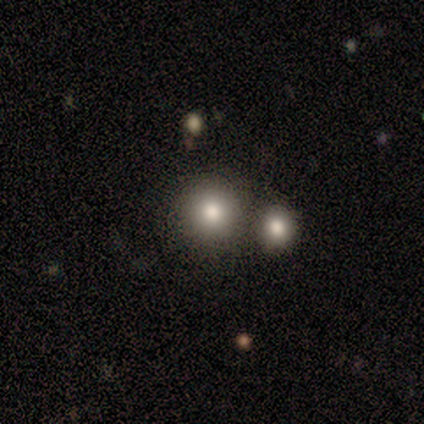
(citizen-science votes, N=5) smooth-or-featured: smooth: 60% | featured or disk: 40% | star or artifact: 0%
  how-rounded: round: 100% | in between: 0% | cigar-shaped: 0%
  merging: none: 60% | major disturbance: 40% | minor disturbance: 0% | merger: 0%